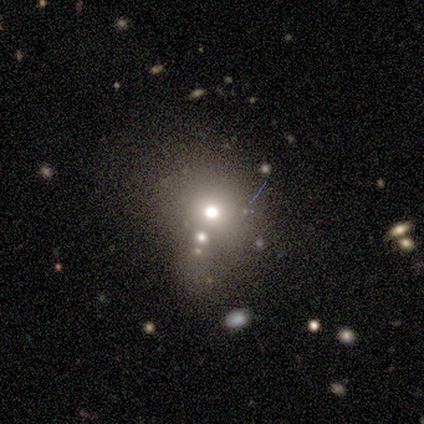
Smooth or featured: smooth — 40% (tied with featured or disk — 40%)
How rounded: round — 50% (tied with in between — 50%)
Merging: none — 50% (minor disturbance — 25%)